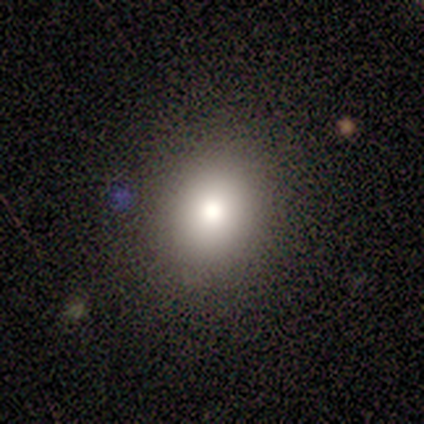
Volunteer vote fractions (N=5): A smooth galaxy with no disk features (60%) that is round (67%).

Vote fractions:
- Smooth or featured? smooth: 60% / star or artifact: 40% / featured or disk: 0%
- How rounded? round: 67% / in between: 33% / cigar-shaped: 0%
- Merging? none: 100% / minor disturbance: 0% / major disturbance: 0% / merger: 0%